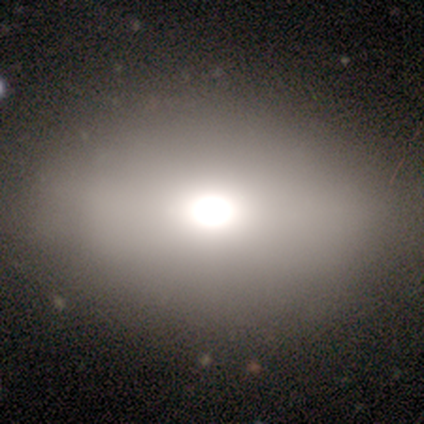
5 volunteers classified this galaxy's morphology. smooth_or_featured: smooth (p=1.00)
how_rounded: in between (p=1.00)
merging: none (p=1.00)